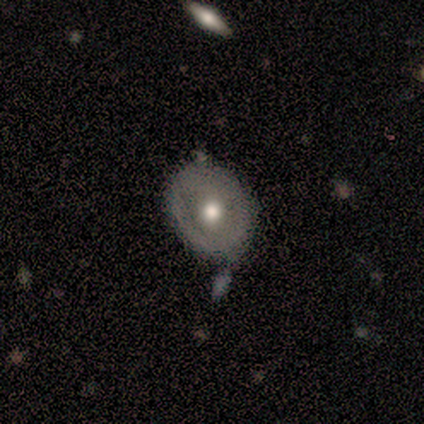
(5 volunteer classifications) Smooth or featured? 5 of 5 (100%) said featured or disk. Edge-on disk? 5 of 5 (100%) said no. Bar? 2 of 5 (40%, tied with no) said weak. Spiral arms? 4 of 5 (80%) said no. Bulge size? 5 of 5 (100%) said moderate. Merging? 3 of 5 (60%) said none.